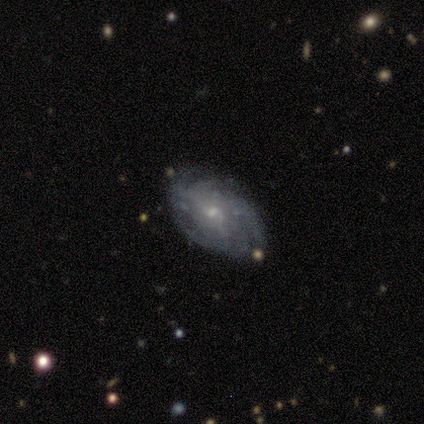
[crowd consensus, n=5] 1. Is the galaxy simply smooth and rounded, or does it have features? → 100% featured or disk, 0% smooth, 0% star or artifact.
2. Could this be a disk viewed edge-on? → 100% no, 0% yes.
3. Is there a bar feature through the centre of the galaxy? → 60% weak, 40% no, 0% strong.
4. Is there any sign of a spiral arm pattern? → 100% yes, 0% no.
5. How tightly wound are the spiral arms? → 60% tight, 20% medium, 20% loose.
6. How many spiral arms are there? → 60% can't tell, 20% 3, 20% 4, 0% 1, 0% 2, 0% more than 4.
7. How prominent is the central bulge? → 100% small, 0% dominant, 0% large, 0% moderate, 0% none.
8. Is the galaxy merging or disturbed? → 100% none, 0% minor disturbance, 0% major disturbance, 0% merger.